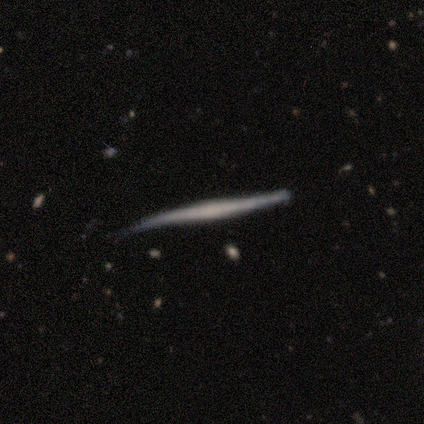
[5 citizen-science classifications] This appears to be a featured or disk galaxy (60%) viewed edge-on (100%) with no central bulge (100%). Merging: none (40%, tied with minor disturbance).